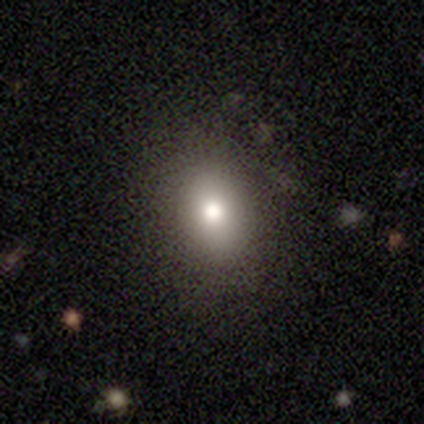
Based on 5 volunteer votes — Volunteers were most divided on "merging": none: 75%, major disturbance: 25%, minor disturbance: 0%, merger: 0%. More confident: how rounded — in between (100%); smooth or featured — smooth (80%).